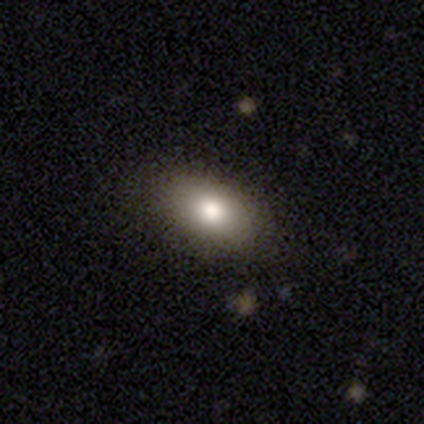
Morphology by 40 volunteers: Q: Smooth or featured?
A: smooth (82%); runner-up: star or artifact (10%)
Q: How rounded?
A: in between (91%); runner-up: round (9%)
Q: Merging?
A: none (83%); runner-up: minor disturbance (14%)